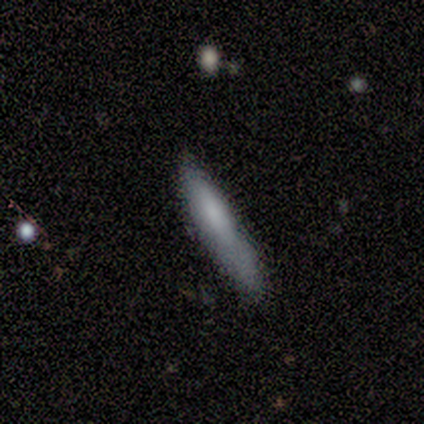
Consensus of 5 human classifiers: smooth 80%, star or artifact 20%, featured or disk 0%. Down the decision tree: how rounded — cigar-shaped (75%); merging — none (75%).